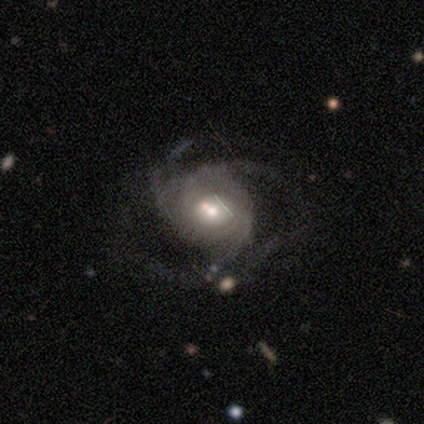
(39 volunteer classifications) Overall: featured or disk (87%). Edge-on disk: no (100%). Bar: no (59%; weak 24%). Spiral arms: yes (94%). Spiral arm count: 3 (56%; can't tell 25%). Spiral winding: medium (50%; tight 28%). Bulge size: moderate (56%; small 32%). Merging: none (39%; major disturbance 28%).